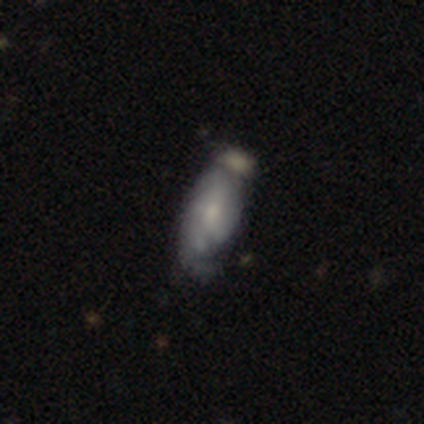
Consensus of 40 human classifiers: Morphology: type=smooth (52%); roundness=in between (67%); merging=merger (37%).